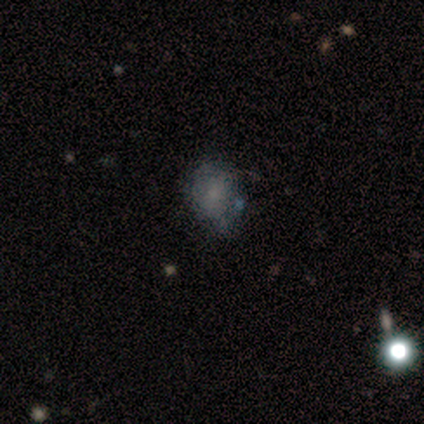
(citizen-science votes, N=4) Overall: smooth (100%). How rounded: round (100%). Merging: none (75%).